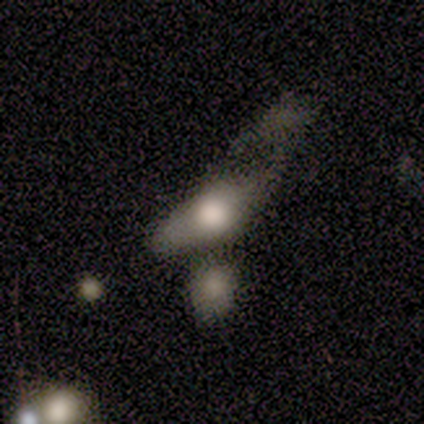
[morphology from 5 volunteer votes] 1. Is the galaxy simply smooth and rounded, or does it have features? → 60% featured or disk, 40% smooth, 0% star or artifact.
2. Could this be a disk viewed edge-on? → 67% no, 33% yes.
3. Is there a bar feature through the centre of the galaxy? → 100% no, 0% strong, 0% weak.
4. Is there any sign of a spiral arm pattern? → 50% yes (tied), 50% no (tied).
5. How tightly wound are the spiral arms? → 100% tight, 0% medium, 0% loose.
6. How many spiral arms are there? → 100% can't tell, 0% 1, 0% 2, 0% 3, 0% 4, 0% more than 4.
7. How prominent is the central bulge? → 50% large (tied), 50% moderate (tied), 0% dominant, 0% small, 0% none.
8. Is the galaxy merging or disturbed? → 40% minor disturbance, 20% none, 20% major disturbance, 20% merger.